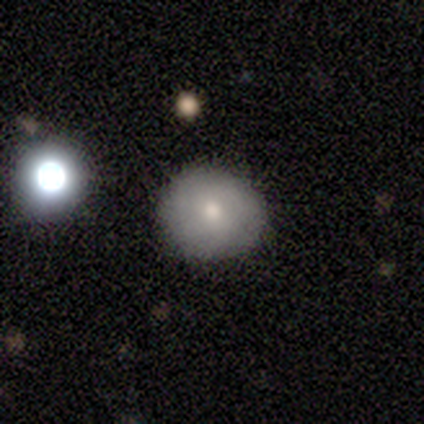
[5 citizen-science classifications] smooth-or-featured: star or artifact: 60% | smooth: 20% | featured or disk: 20%